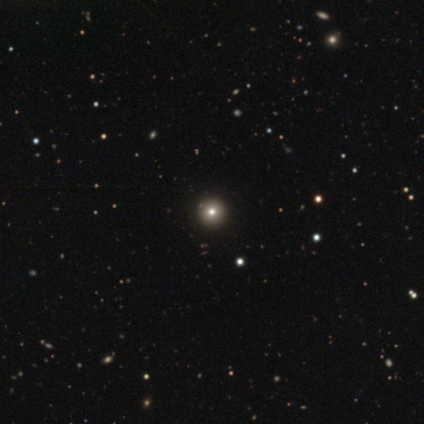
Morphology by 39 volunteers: Volunteers were most divided on "smooth or featured": smooth: 79%, star or artifact: 13%, featured or disk: 8%. More confident: how rounded — round (100%); merging — none (76%).